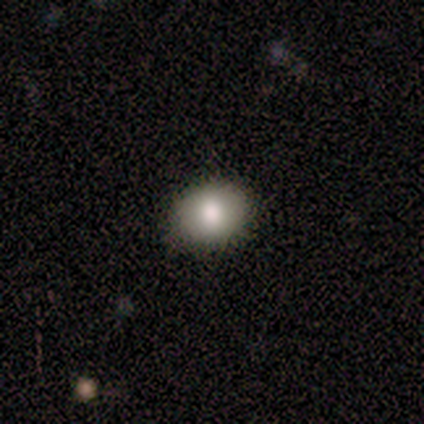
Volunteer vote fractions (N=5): Morphology: type=smooth (100%); roundness=round (80%); merging=none (80%).